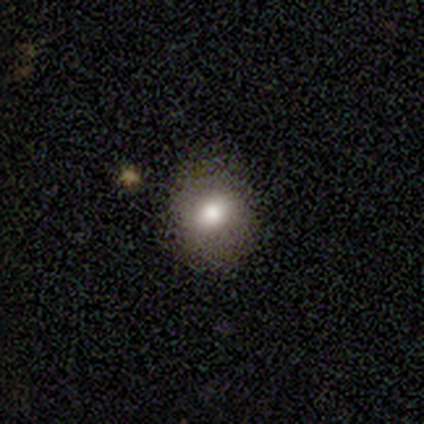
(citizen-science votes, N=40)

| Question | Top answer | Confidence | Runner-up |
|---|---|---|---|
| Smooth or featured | smooth | 75% | featured or disk (15%) |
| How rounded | round | 80% | in between (20%) |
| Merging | none | 81% | major disturbance (11%) |